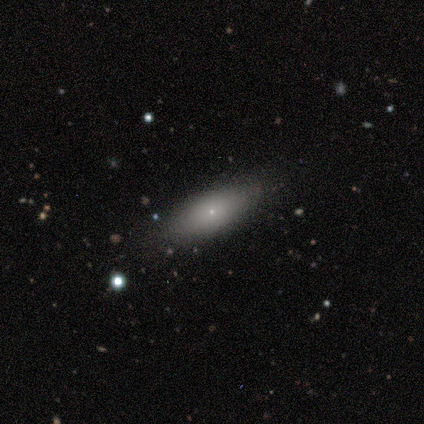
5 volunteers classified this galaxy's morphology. A smooth galaxy with no disk features (80%) that is in between round and cigar-shaped (100%). Merging: none (80%).